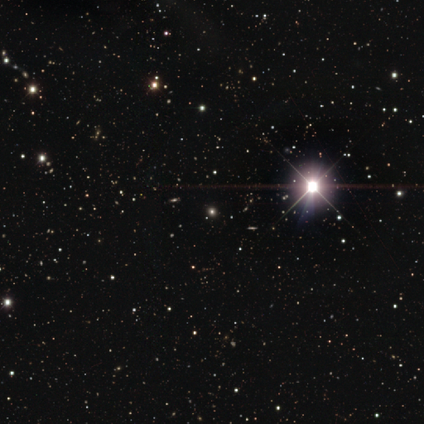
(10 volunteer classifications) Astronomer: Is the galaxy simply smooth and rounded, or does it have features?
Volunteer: star or artifact — 80%.